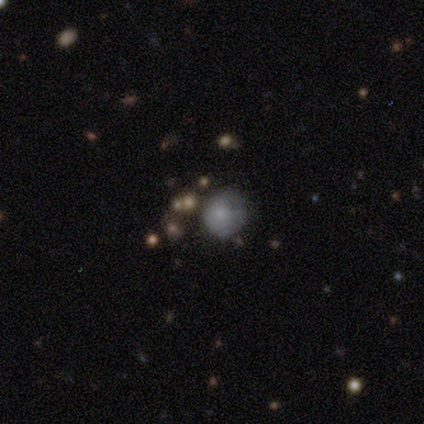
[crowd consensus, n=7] This appears to be a smooth galaxy with no disk features (57%) that is round (100%). Merging: none (60%).